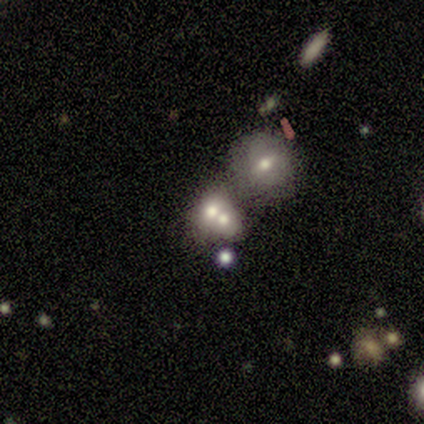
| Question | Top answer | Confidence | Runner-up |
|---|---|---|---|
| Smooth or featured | smooth | 46% | featured or disk (31%) |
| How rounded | round | 67% | in between (33%) |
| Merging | merger | 80% | none (13%) |